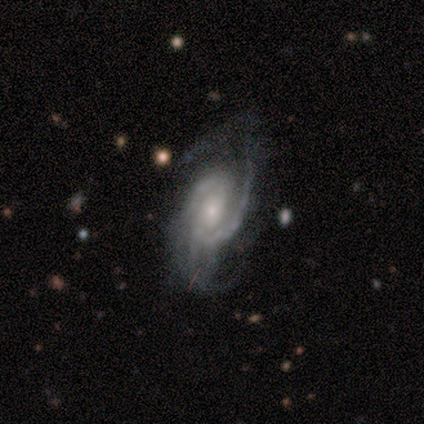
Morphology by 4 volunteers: This appears to be a featured or disk galaxy (100%) with no bar (75%), 3 (50%) tight (50%) spiral arms (100%) and a small central bulge (75%). Merging: none (75%).